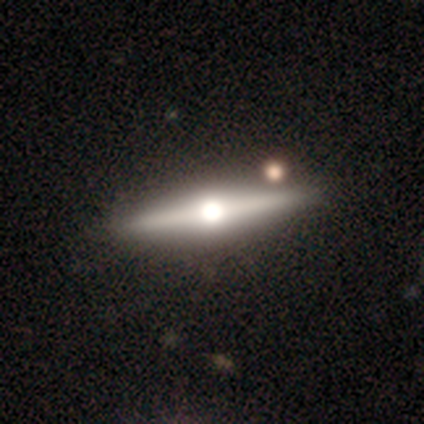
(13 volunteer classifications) A featured or disk galaxy (85%) viewed edge-on (100%) with a rounded central bulge (100%). Merging: none (92%).